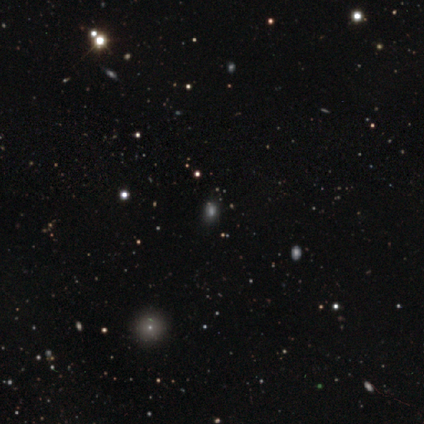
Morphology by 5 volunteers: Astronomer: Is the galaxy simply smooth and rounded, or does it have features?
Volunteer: star or artifact — 60% (runner-up: smooth, 40%).